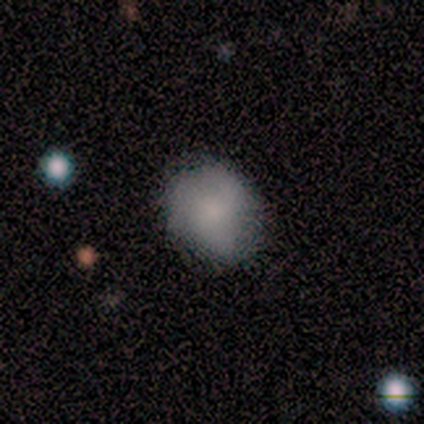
Smooth or featured? smooth (71%)
How rounded? in between (60%)
Merging? none (86%)